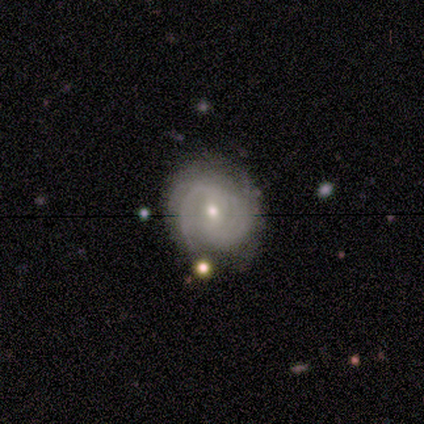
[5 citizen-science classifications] Volunteers were most divided on "merging": minor disturbance: 60%, none: 40%, major disturbance: 0%, merger: 0%. More confident: smooth or featured — featured or disk (100%); edge-on disk — no (100%); spiral arms — yes (80%); spiral winding — medium (75%); spiral arm count — 2 (75%); bar — weak (60%); bulge size — small (60%).